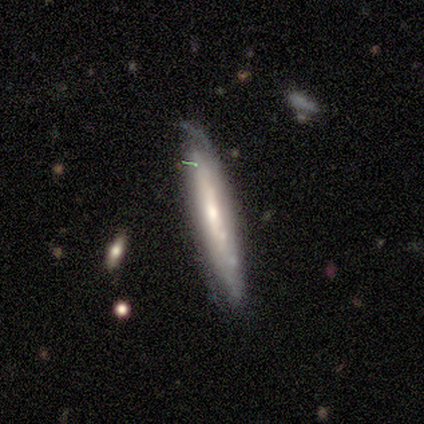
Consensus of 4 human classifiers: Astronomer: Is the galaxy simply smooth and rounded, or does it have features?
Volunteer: featured or disk — 100%.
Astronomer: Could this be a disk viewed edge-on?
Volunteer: yes — 50%, tied with no at 50%.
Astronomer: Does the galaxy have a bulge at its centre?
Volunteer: none — 50%, tied with rounded at 50%.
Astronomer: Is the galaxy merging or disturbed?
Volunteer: none — 50%.